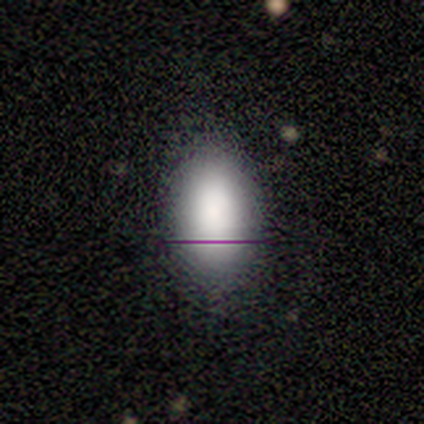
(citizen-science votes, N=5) Smooth or featured? 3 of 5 (60%) said smooth. How rounded? 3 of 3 (100%) said in between. Merging? 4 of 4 (100%) said none.